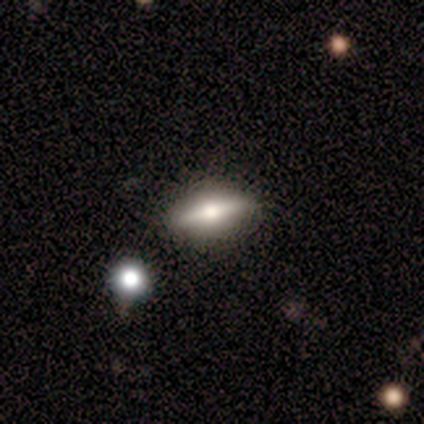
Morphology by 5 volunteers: Overall: smooth (40%, tied with featured or disk). How rounded: in between (100%). Merging: none (75%).